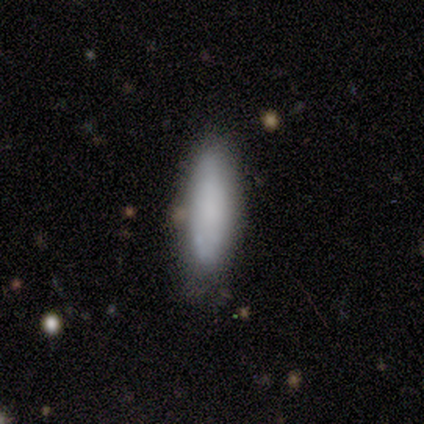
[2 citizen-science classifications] A smooth galaxy with no disk features (100%) that is in between round and cigar-shaped (50%, tied with cigar-shaped).

Vote fractions:
- Smooth or featured? smooth: 100% / featured or disk: 0% / star or artifact: 0%
- How rounded? in between: 50% (tied) / cigar-shaped: 50% (tied) / round: 0%
- Merging? none: 100% / minor disturbance: 0% / major disturbance: 0% / merger: 0%